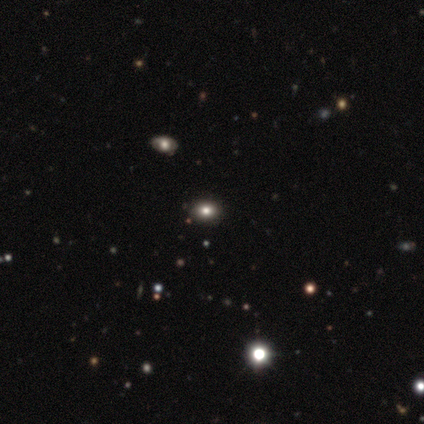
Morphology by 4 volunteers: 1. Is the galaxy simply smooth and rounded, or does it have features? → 50% smooth, 25% featured or disk, 25% star or artifact.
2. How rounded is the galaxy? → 100% in between, 0% round, 0% cigar-shaped.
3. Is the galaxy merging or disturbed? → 67% none, 33% merger, 0% minor disturbance, 0% major disturbance.